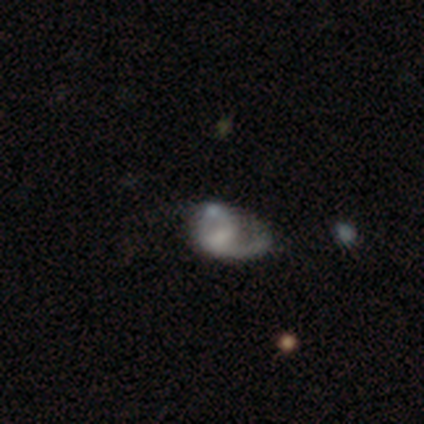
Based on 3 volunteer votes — Morphology: type=featured or disk (67%); edge-on=no (100%); bar=weak (50%, tied with no); spiral arms=yes (100%); winding=tight (50%, tied with medium); arm count=1 (50%, tied with 2); bulge=moderate (50%, tied with small); merging=none (33%, tied with minor disturbance and major disturbance).